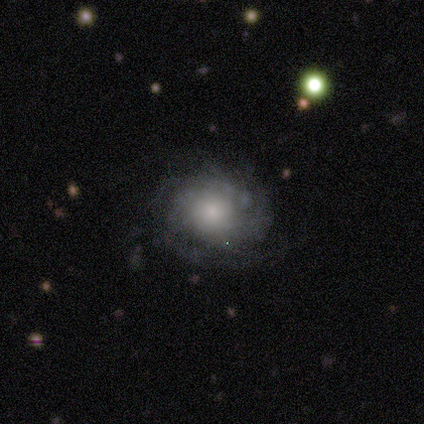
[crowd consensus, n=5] Smooth or featured? 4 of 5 (80%) said featured or disk. Edge-on disk? 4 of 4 (100%) said no. Bar? 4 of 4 (100%) said no. Spiral arms? 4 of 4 (100%) said yes. Spiral winding? 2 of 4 (50%, tied with medium) said tight. Spiral arm count? 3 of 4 (75%) said can't tell. Bulge size? 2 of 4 (50%) said small. Merging? 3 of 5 (60%) said none.